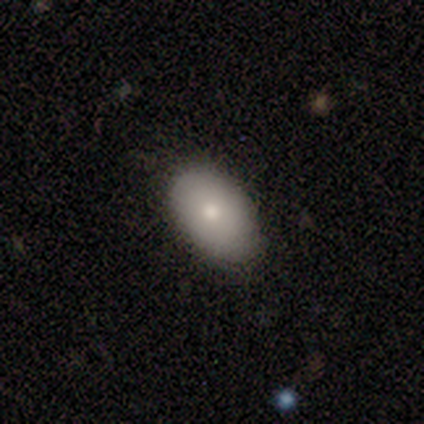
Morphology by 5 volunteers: This is likely a smooth galaxy (60%). How rounded: clearly in between (100%). Merging: clearly none (100%).